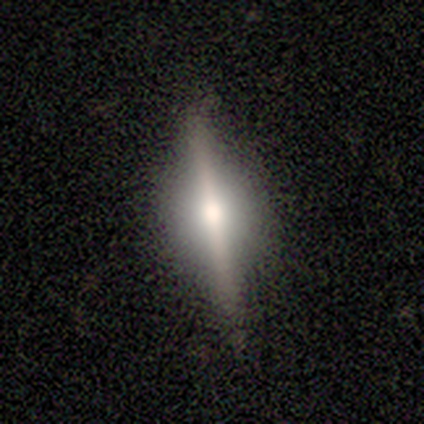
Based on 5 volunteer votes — This is likely a smooth galaxy (60%). How rounded: clearly cigar-shaped (100%). Merging: clearly none (100%).